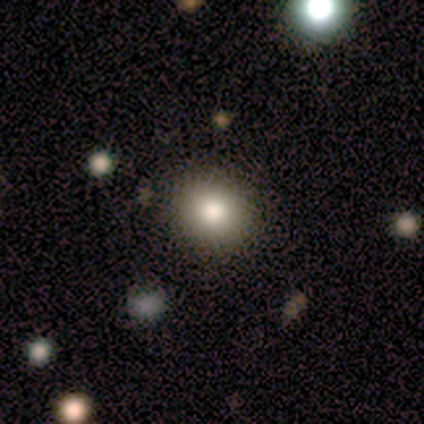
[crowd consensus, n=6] A smooth galaxy with no disk features (83%) that is round (100%). Merging: none (80%).